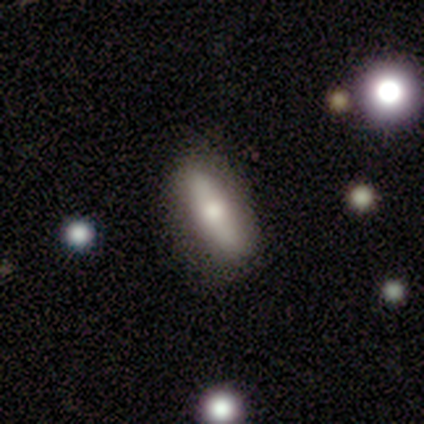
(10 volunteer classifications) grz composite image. It shows a smooth galaxy with no disk features (50%, tied with featured or disk) that is in between round and cigar-shaped (60%). Merging: none (50%).